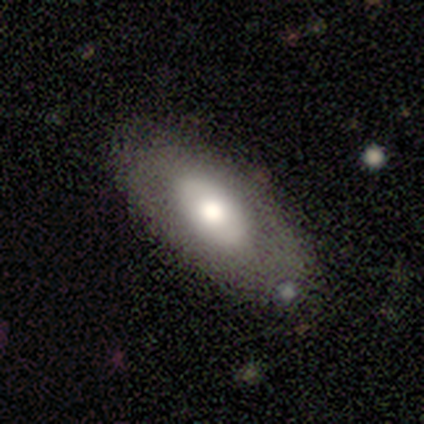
smooth-or-featured: smooth: 60% | featured or disk: 40% | star or artifact: 0%
  how-rounded: in between: 100% | round: 0% | cigar-shaped: 0%
  merging: none: 80% | merger: 20% | minor disturbance: 0% | major disturbance: 0%